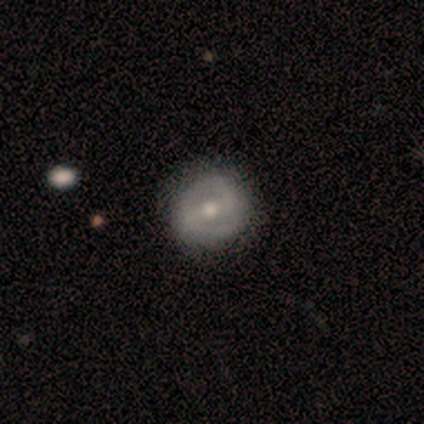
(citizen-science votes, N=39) smooth-or-featured: featured or disk: 79% | smooth: 21% | star or artifact: 0%
  disk-edge-on: no: 94% | yes: 6%
    bar: strong: 41% (tied) | weak: 41% (tied) | no: 17%
    has-spiral-arms: yes: 79% | no: 21%
      spiral-winding: tight: 39% | loose: 35% | medium: 26%
      spiral-arm-count: 2: 87% | 1: 9% | can't tell: 4% | 3: 0% | 4: 0% | more than 4: 0%
    bulge-size: moderate: 72% | small: 24% | large: 3% | dominant: 0% | none: 0%
  merging: none: 64% | minor disturbance: 8% | major disturbance: 0% | merger: 0%